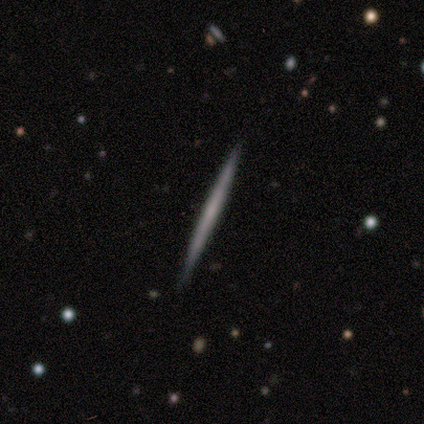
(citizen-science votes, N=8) Smooth or featured?
  - smooth: 50% * (tied)
  - featured or disk: 50% * (tied)
  - star or artifact: 0%
How rounded?
  - cigar-shaped: 100% *
  - round: 0%
  - in between: 0%
Merging?
  - none: 100% *
  - minor disturbance: 0%
  - major disturbance: 0%
  - merger: 0%